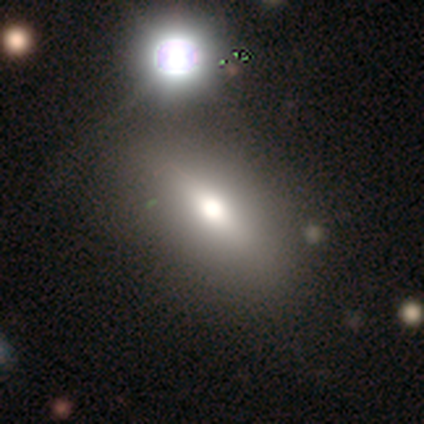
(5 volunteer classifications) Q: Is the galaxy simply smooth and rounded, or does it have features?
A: smooth — 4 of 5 (80%).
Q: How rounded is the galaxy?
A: in between — 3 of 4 (75%).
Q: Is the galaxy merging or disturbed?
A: none — 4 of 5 (80%).